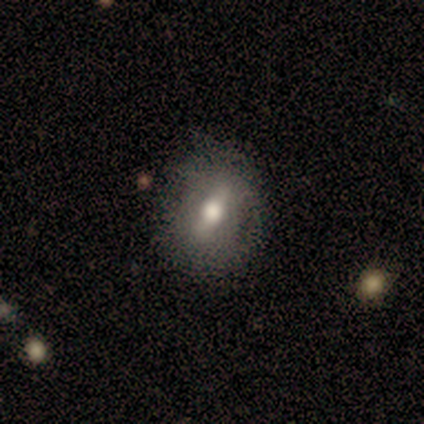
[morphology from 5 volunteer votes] Overall: featured or disk (60%; smooth 20%). Edge-on disk: no (67%; yes 33%). Bar: strong (50%, tied with weak). Spiral arms: yes (50%, tied with no). Spiral arm count: 2 (100%). Spiral winding: tight (100%). Bulge size: large (50%, tied with small). Merging: none (50%, tied with minor disturbance).